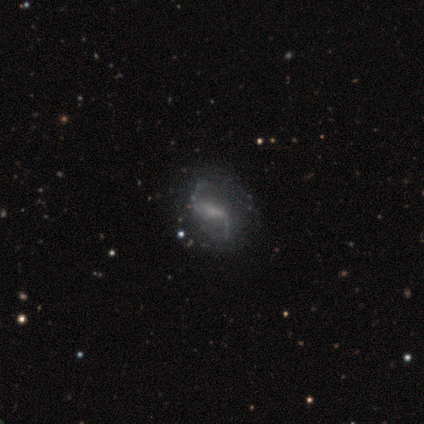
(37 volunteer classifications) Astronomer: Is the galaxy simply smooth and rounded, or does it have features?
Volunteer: featured or disk — 95%.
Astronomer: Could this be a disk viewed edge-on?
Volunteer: no — 91%.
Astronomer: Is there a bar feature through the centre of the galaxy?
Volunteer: strong — 47% (runner-up: weak, 41%).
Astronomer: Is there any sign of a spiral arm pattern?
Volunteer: yes — 88%.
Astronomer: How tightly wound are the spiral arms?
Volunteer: loose — 93%.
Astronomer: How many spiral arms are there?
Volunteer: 2 — 89%.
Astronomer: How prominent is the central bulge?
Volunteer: none — 62%.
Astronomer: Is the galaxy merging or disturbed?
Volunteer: none — 43%.